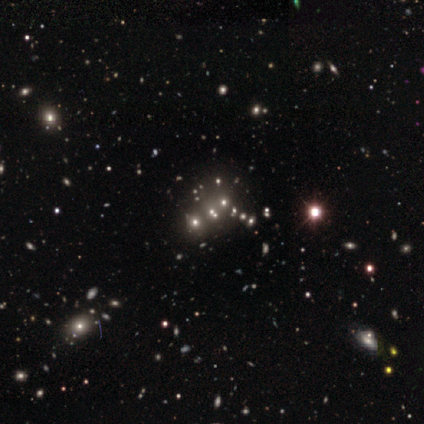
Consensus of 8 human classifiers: smooth-or-featured: star or artifact: 62% | smooth: 25% | featured or disk: 12%